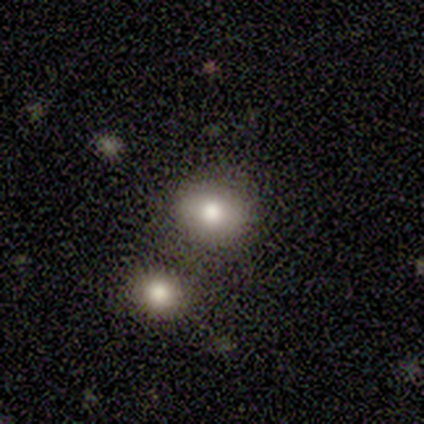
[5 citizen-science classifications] Smooth or featured: smooth — 60% (featured or disk — 20%)
How rounded: round — 100%
Merging: none — 75% (minor disturbance — 25%)